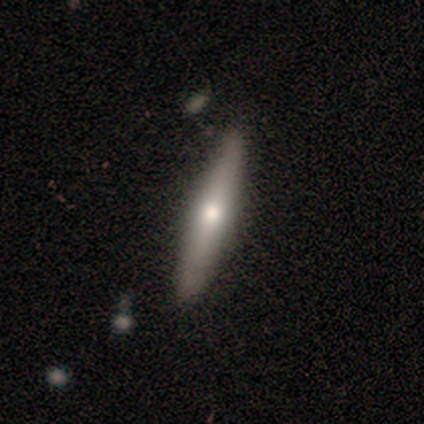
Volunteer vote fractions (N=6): smooth_or_featured: smooth (p=0.50) [tied with: featured or disk p=0.50]
how_rounded: cigar-shaped (p=1.00)
merging: none (p=0.83) [alt: minor disturbance p=0.17]